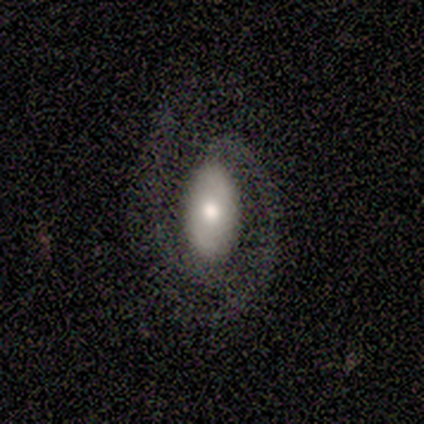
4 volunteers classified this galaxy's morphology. A featured or disk galaxy (75%) with no bar (67%), 2 (100%) tight (50%, tied with medium) spiral arms (67%) and a moderate central bulge (100%). Merging: none (50%, tied with major disturbance).